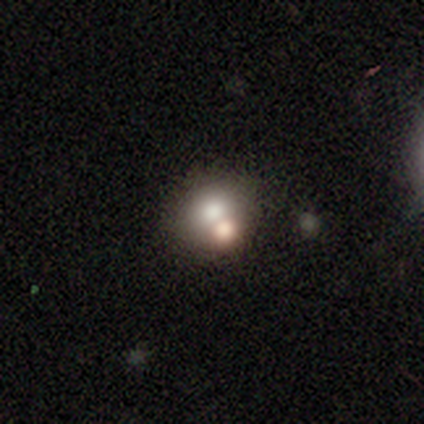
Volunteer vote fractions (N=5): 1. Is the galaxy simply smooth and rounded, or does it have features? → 80% smooth, 20% featured or disk, 0% star or artifact.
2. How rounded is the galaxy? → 100% round, 0% in between, 0% cigar-shaped.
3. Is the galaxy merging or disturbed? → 60% merger, 40% none, 0% minor disturbance, 0% major disturbance.